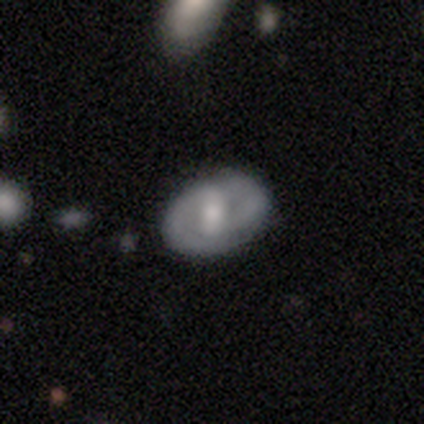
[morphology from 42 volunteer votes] Smooth or featured: featured or disk — 57% (smooth — 36%)
Edge-on disk: no — 100%
Bar: no — 42% (strong — 33%)
Spiral arms: yes — 71% (no — 29%)
Spiral winding: medium — 59% (tight — 35%)
Spiral arm count: 2 — 71% (can't tell — 24%)
Bulge size: moderate — 46% (small — 29%)
Merging: none — 74% (minor disturbance — 21%)